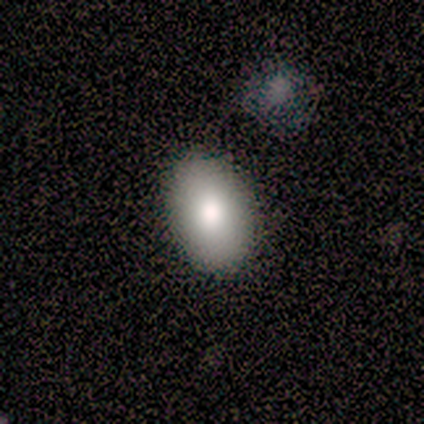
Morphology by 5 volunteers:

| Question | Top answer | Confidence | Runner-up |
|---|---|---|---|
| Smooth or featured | smooth | 100% | — |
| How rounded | in between | 80% | round (20%) |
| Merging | none | 80% | merger (20%) |